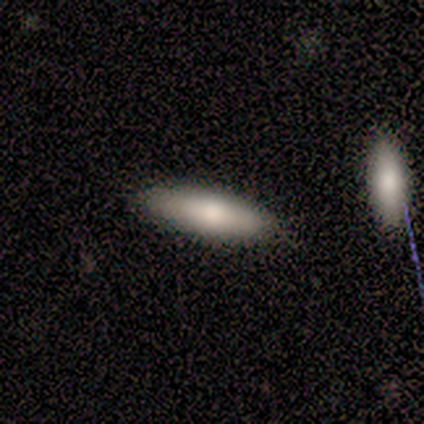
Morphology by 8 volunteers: smooth 75%, featured or disk 25%, star or artifact 0%. Down the decision tree: how rounded — in between (50%, tied with cigar-shaped); merging — none (100%).